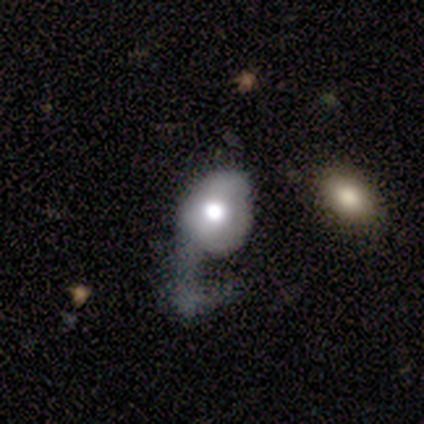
A smooth galaxy with no disk features (59%) that is in between round and cigar-shaped (52%). Merging: major disturbance (67%).